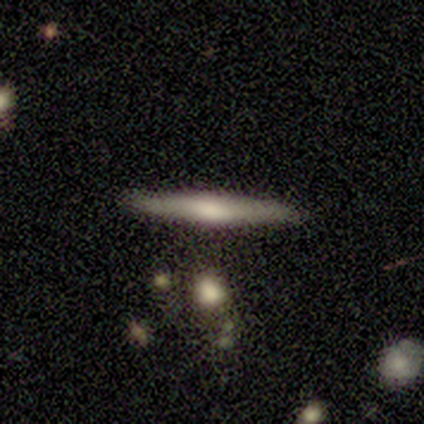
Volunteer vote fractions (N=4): smooth 50% (tied), featured or disk 50% (tied), star or artifact 0%. Down the decision tree: how rounded — cigar-shaped (100%); merging — none (75%).